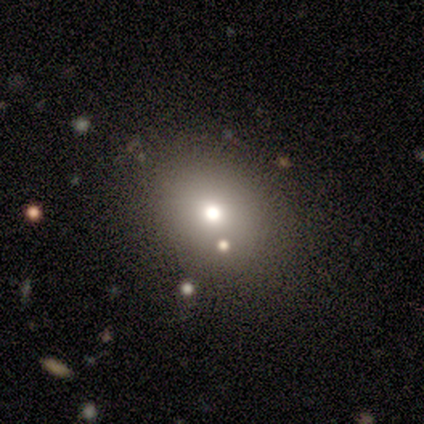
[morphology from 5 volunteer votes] type=smooth (80%); roundness=round (50%, tied with in between); merging=none (75%).